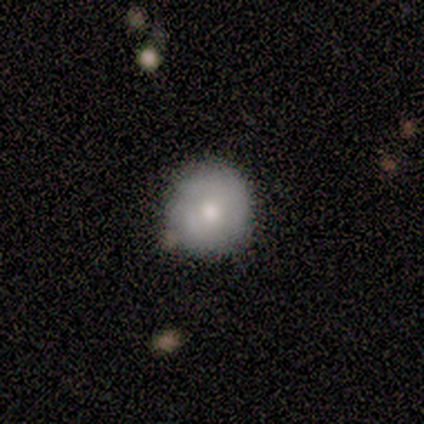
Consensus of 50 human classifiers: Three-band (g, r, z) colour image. It shows a smooth galaxy with no disk features (64%) that is round (97%). Merging: none (74%).